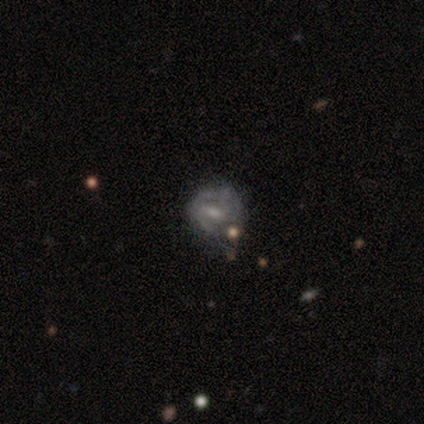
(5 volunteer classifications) This appears to be a featured or disk galaxy (80%) with a strong bar (100%), medium (75%) spiral arms (100%) and a moderate central bulge (50%, tied with small). Merging: none (50%, tied with minor disturbance).